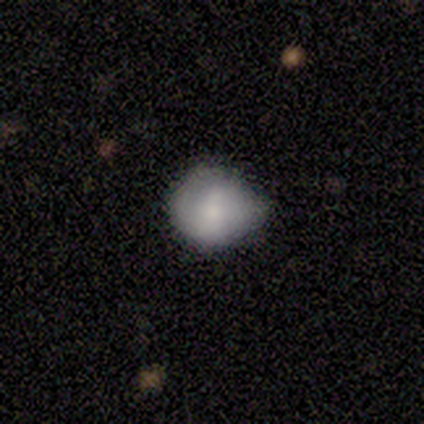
A smooth galaxy with no disk features (100%) that is round (80%). Merging: none (100%).